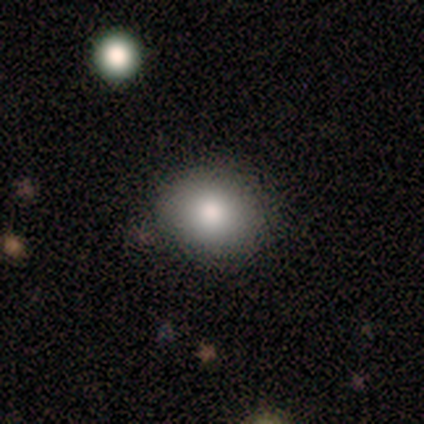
Smooth or featured?
  - smooth: 100% *
  - featured or disk: 0%
  - star or artifact: 0%
How rounded?
  - round: 80% *
  - in between: 20%
  - cigar-shaped: 0%
Merging?
  - minor disturbance: 40% *
  - none: 20%
  - major disturbance: 20%
  - merger: 20%